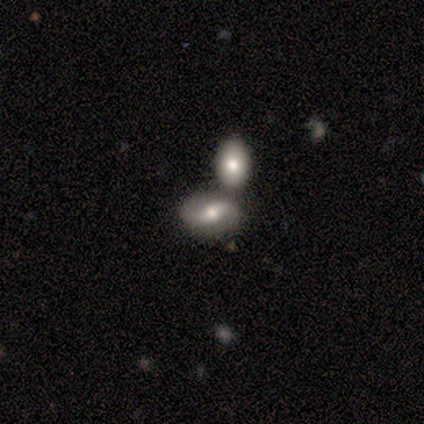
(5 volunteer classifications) This appears to be a featured or disk galaxy (80%) with no bar (50%), 2 (100%) loose (75%) spiral arms (100%) and a moderate central bulge (50%). Merging: merger (60%).